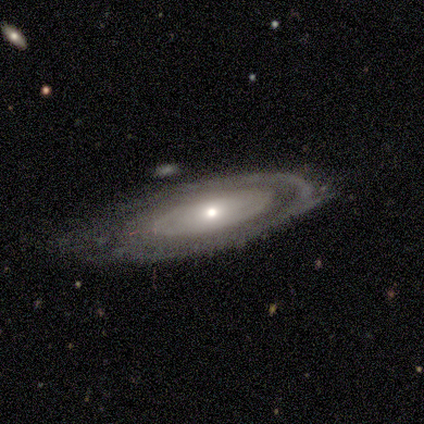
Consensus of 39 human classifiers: A featured or disk galaxy (82%) with no bar (93%), no spiral arms (59%) and a small central bulge (48%).

Vote fractions:
- Smooth or featured? featured or disk: 82% / smooth: 13% / star or artifact: 5%
- Edge-on disk? no: 91% / yes: 9%
- Bar? no: 93% / strong: 3% / weak: 3%
- Spiral arms? no: 59% / yes: 41%
- Bulge size? small: 48% / moderate: 45% / dominant: 3% / large: 3% / none: 0%
- Merging? minor disturbance: 43% / none: 41% / major disturbance: 11% / merger: 5%